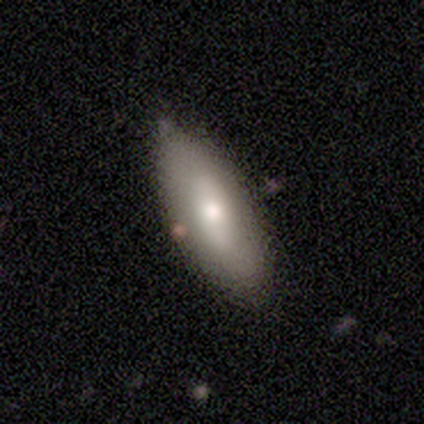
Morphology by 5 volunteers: smooth-or-featured: smooth: 80% | featured or disk: 20% | star or artifact: 0%
  how-rounded: in between: 75% | cigar-shaped: 25% | round: 0%
  merging: none: 80% | minor disturbance: 20% | major disturbance: 0% | merger: 0%